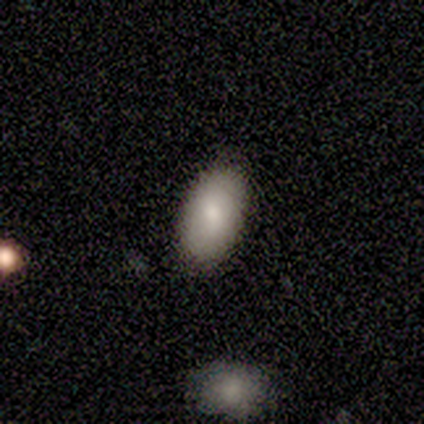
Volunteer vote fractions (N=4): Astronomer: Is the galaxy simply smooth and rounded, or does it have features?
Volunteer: smooth — 100%.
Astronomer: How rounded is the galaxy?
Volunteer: in between — 75%.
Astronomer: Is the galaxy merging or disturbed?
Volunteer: none — 75%.